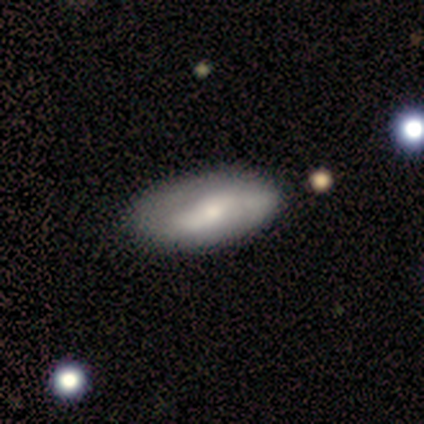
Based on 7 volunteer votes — Volunteers were most divided on "merging": none: 83%, minor disturbance: 17%, major disturbance: 0%, merger: 0%. More confident: how rounded — in between (100%); smooth or featured — smooth (86%).